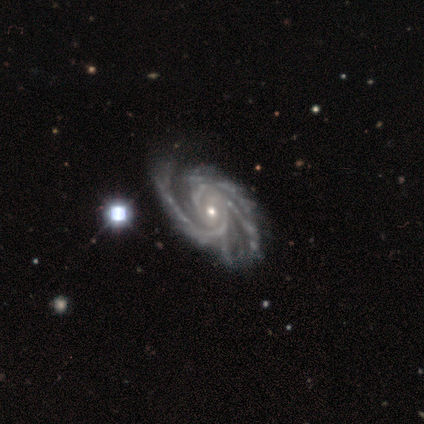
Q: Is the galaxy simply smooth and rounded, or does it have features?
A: featured or disk — 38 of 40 (95%).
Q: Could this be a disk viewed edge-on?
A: no — 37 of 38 (97%).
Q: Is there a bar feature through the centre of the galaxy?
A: no — 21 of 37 (57%).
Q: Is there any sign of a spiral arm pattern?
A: yes — 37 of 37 (100%).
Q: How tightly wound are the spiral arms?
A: medium — 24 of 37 (65%).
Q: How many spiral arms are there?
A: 3 — 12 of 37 (32%).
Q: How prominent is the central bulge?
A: small — 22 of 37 (59%).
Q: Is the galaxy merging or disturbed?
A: none — 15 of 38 (39%).